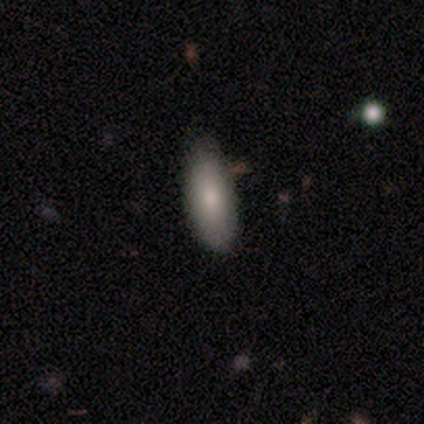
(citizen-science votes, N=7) This appears to be a smooth galaxy with no disk features (86%) that is in between round and cigar-shaped (83%). Merging: minor disturbance (57%).